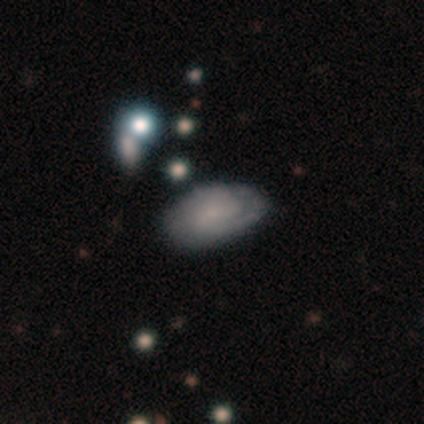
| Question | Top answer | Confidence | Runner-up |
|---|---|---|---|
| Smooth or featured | featured or disk | 60% | smooth (40%) |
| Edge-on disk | no | 100% | — |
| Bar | weak | 100% | — |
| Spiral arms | yes | 100% | — |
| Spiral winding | tight | 33% | tied: medium (33%), loose (33%) |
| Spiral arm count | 2 | 67% | can't tell (33%) |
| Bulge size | none | 67% | moderate (33%) |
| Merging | none | 80% | merger (20%) |